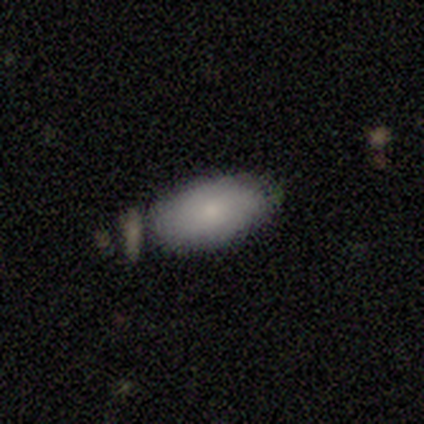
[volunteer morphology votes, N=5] Q: Smooth or featured?
A: smooth (80%); runner-up: star or artifact (20%)
Q: How rounded?
A: in between (100%)
Q: Merging?
A: none (100%)